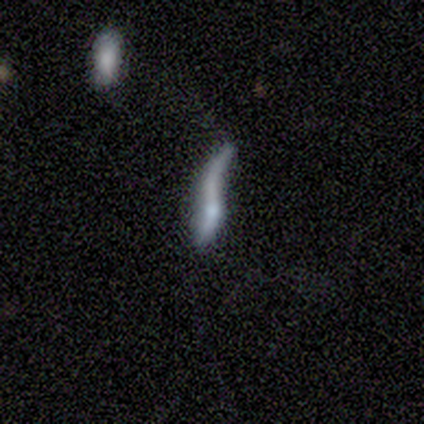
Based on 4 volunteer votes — Smooth or featured? smooth (50%, tied with featured or disk)
How rounded? cigar-shaped (100%)
Merging? major disturbance (75%)